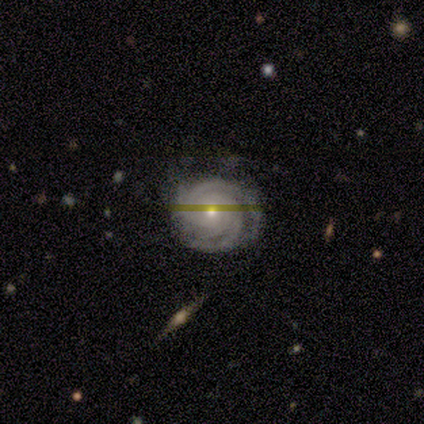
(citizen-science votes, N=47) Smooth or featured?
  - featured or disk: 81% *
  - star or artifact: 13%
  - smooth: 6%
Edge-on disk?
  - no: 97% *
  - yes: 3%
Bar?
  - no: 78% *
  - weak: 16%
  - strong: 5%
Spiral arms?
  - yes: 97% *
  - no: 3%
Spiral winding?
  - tight: 89% *
  - medium: 8%
  - loose: 3%
Spiral arm count?
  - 3: 47% *
  - 4: 22%
  - 2: 19%
  - can't tell: 11%
  - 1: 0%
  - more than 4: 0%
Bulge size?
  - moderate: 49% * (tied)
  - small: 49% * (tied)
  - none: 3%
  - dominant: 0%
  - large: 0%
Merging?
  - none: 71% *
  - minor disturbance: 29%
  - major disturbance: 0%
  - merger: 0%